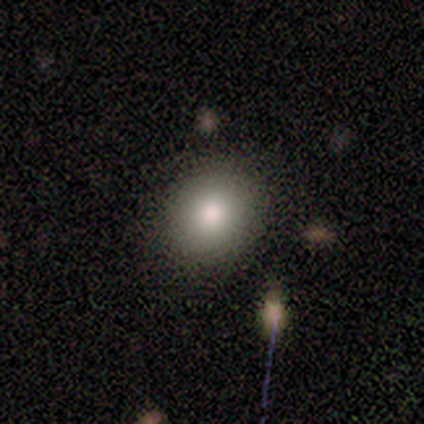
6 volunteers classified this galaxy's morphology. This is likely a smooth galaxy (67%). How rounded: likely in between (75%). Merging: possibly none (50%, tied with minor disturbance).